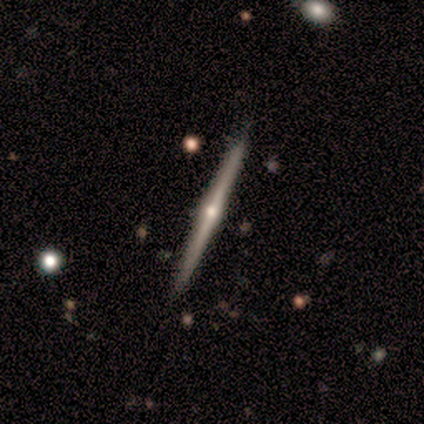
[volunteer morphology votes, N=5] This appears to be a featured or disk galaxy (100%) viewed edge-on (100%) with a rounded central bulge (100%). Merging: none (100%).